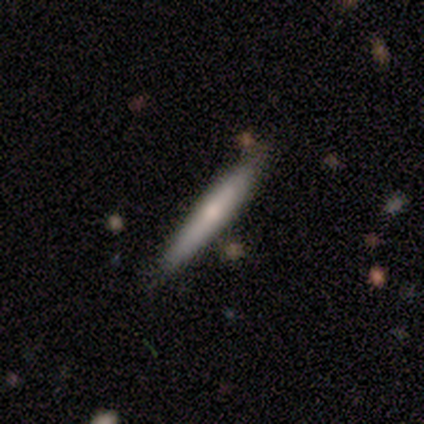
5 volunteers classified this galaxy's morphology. Smooth or featured: featured or disk — 60% (smooth — 40%)
Edge-on disk: yes — 100%
Edge-on bulge: boxy — 33% (tied with none — 33%; rounded — 33%)
Merging: none — 80% (merger — 20%)